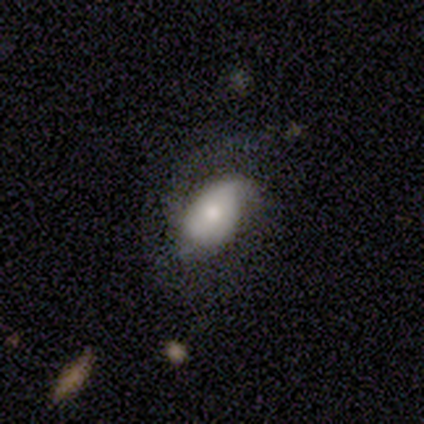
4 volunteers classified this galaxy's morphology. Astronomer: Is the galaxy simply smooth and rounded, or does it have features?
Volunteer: smooth — 75%.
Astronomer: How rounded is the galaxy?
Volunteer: in between — 100%.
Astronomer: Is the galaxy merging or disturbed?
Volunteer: major disturbance — 50%.